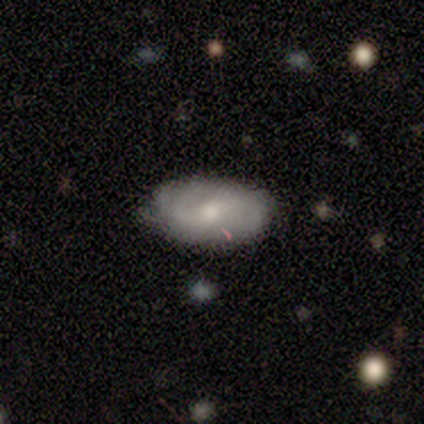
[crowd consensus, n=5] Smooth or featured?
  - smooth: 60% *
  - featured or disk: 40%
  - star or artifact: 0%
How rounded?
  - in between: 100% *
  - round: 0%
  - cigar-shaped: 0%
Merging?
  - none: 60% *
  - minor disturbance: 40%
  - major disturbance: 0%
  - merger: 0%